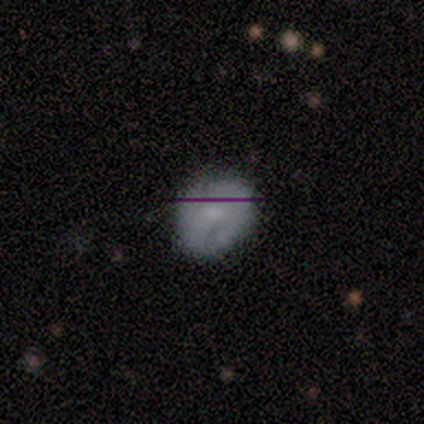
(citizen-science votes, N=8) A smooth galaxy with no disk features (100%) that is round (75%).

Vote fractions:
- Smooth or featured? smooth: 100% / featured or disk: 0% / star or artifact: 0%
- How rounded? round: 75% / in between: 25% / cigar-shaped: 0%
- Merging? none: 88% / minor disturbance: 12% / major disturbance: 0% / merger: 0%